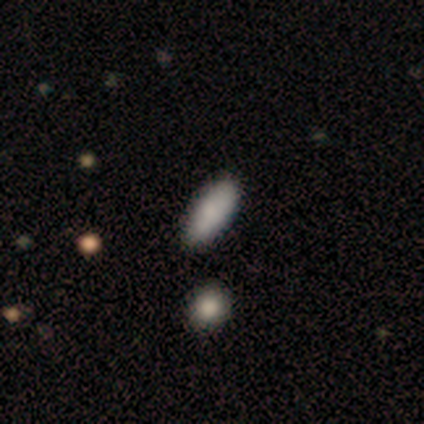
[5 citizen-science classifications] This is clearly a smooth galaxy (100%). How rounded: clearly in between (100%). Merging: clearly none (80%).